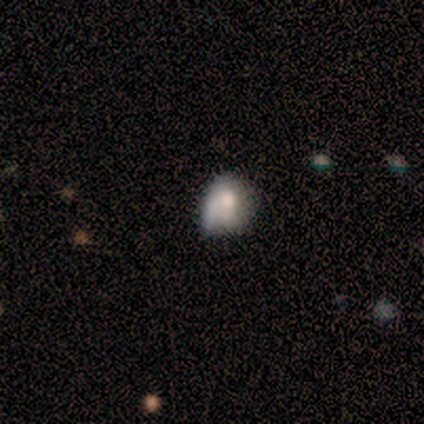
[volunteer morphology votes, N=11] smooth 64%, featured or disk 18%, star or artifact 18%. Down the decision tree: how rounded — in between (71%); merging — minor disturbance (67%).